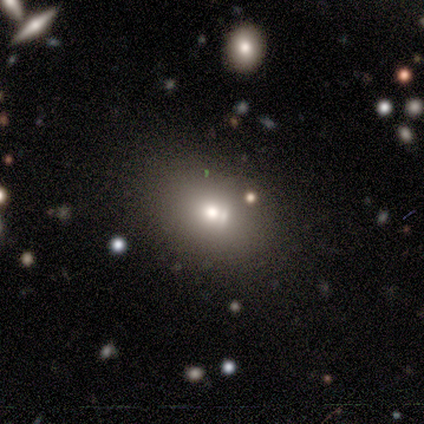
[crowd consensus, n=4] Morphology: type=smooth (100%); roundness=in between (75%); merging=none (50%, tied with merger).